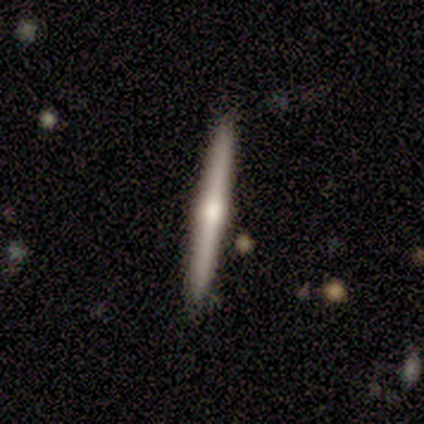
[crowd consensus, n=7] Q: Smooth or featured?
A: smooth (57%); runner-up: featured or disk (43%)
Q: How rounded?
A: cigar-shaped (100%)
Q: Merging?
A: none (100%)